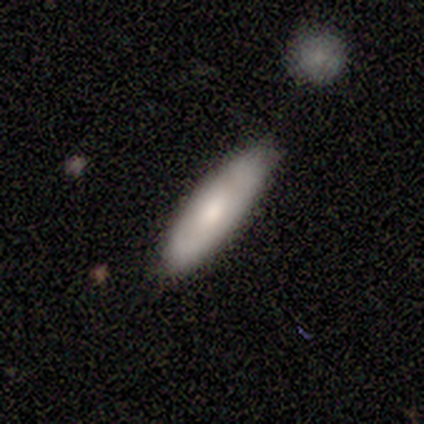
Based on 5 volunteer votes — A smooth galaxy with no disk features (100%) that is cigar-shaped (80%). Merging: none (60%).